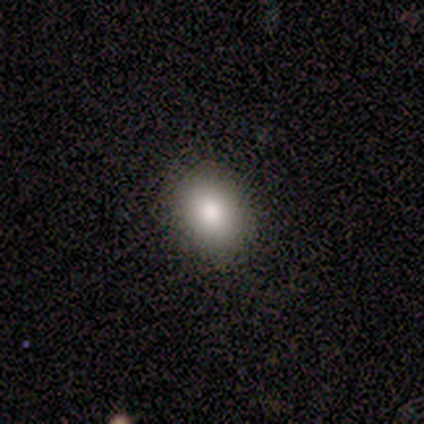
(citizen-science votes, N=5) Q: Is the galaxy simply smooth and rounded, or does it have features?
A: smooth — 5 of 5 (100%).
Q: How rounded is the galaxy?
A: in between — 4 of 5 (80%).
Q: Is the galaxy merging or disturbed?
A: none — 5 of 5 (100%).